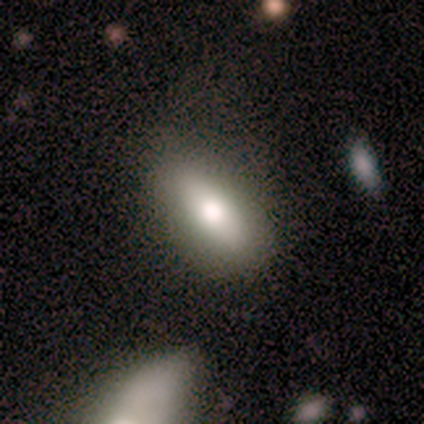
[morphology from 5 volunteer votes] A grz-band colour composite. It shows a featured or disk galaxy (60%) viewed edge-on (67%) with a rounded central bulge (100%). Merging: none (80%).